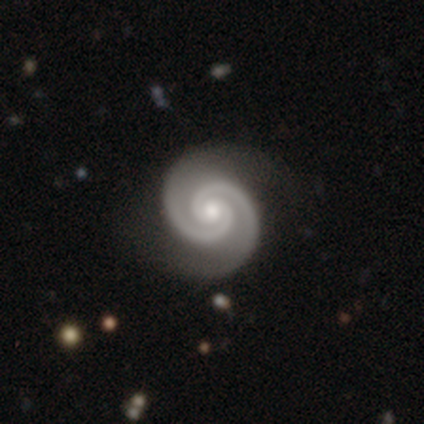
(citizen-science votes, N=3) featured or disk 67%, smooth 33%, star or artifact 0%. Down the decision tree: edge-on disk — no (100%); bar — no (100%); spiral arms — yes (100%); spiral arm count — 2 (100%); spiral winding — tight (100%); bulge size — moderate (50%, tied with small); merging — none (100%).